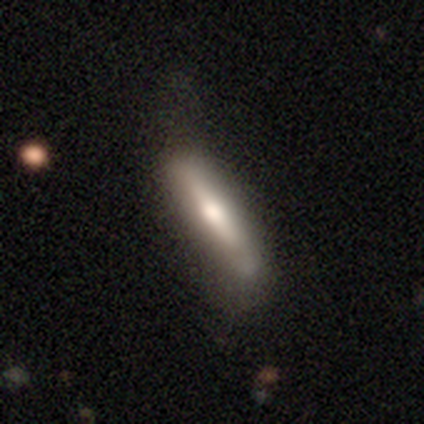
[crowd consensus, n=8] Smooth or featured? smooth (62%)
How rounded? cigar-shaped (80%)
Merging? none (88%)